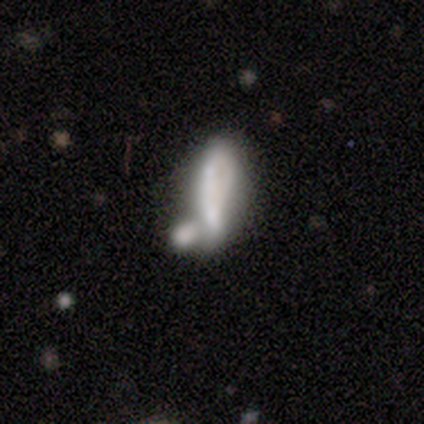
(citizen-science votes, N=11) Q: Smooth or featured?
A: smooth (64%); runner-up: featured or disk (36%)
Q: How rounded?
A: cigar-shaped (57%); runner-up: in between (43%)
Q: Merging?
A: merger (100%)